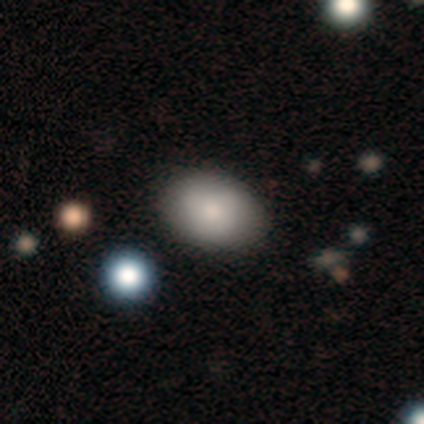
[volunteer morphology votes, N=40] Q: Smooth or featured?
A: smooth (88%); runner-up: star or artifact (8%)
Q: How rounded?
A: in between (71%); runner-up: round (29%)
Q: Merging?
A: none (92%); runner-up: minor disturbance (5%)